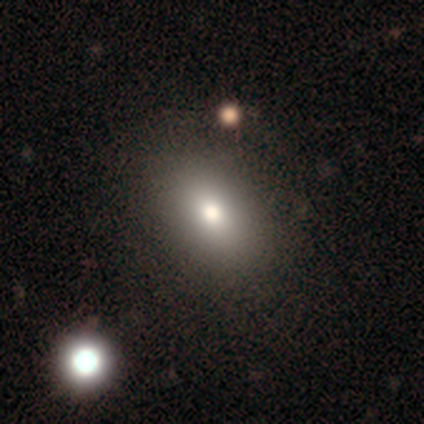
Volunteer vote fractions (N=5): A smooth galaxy with no disk features (80%) that is in between round and cigar-shaped (100%). Merging: none (100%).